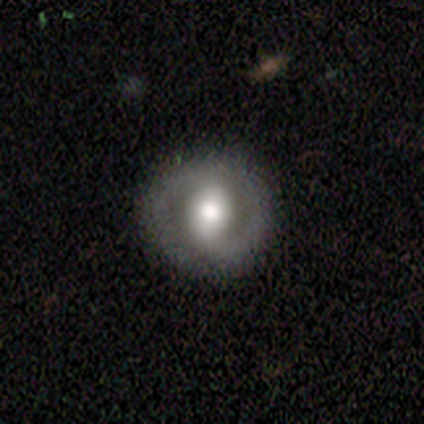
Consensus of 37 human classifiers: smooth_or_featured: featured or disk (p=0.62) [alt: smooth p=0.32]
disk_edge_on: no (p=1.00)
bar: strong (p=0.35) [tied with: weak p=0.35]
has_spiral_arms: yes (p=0.78) [alt: no p=0.22]
spiral_winding: tight (p=0.44) [tied with: medium p=0.44]
spiral_arm_count: 2 (p=0.78) [alt: 1 p=0.11]
bulge_size: moderate (p=0.57) [alt: large p=0.26]
merging: none (p=0.86) [alt: major disturbance p=0.11]